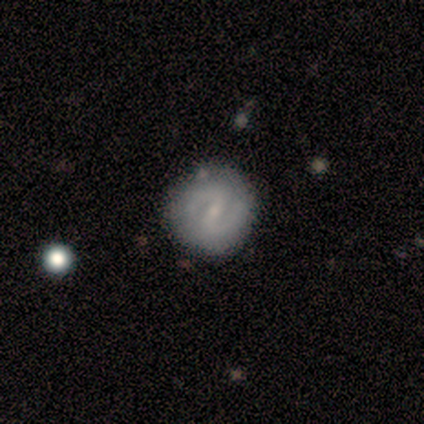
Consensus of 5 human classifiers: smooth-or-featured: smooth: 40% (tied) | featured or disk: 40% (tied) | star or artifact: 20%
  how-rounded: round: 100% | in between: 0% | cigar-shaped: 0%
  merging: none: 75% | major disturbance: 25% | minor disturbance: 0% | merger: 0%